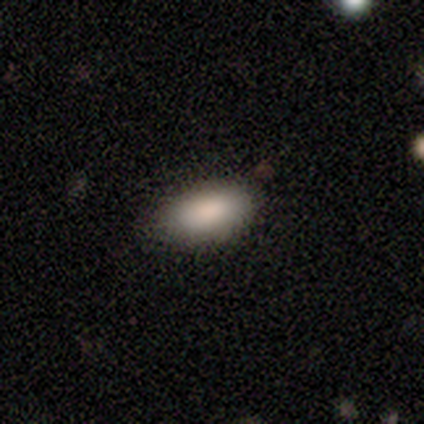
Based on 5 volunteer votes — Smooth or featured?
  - smooth: 100% *
  - featured or disk: 0%
  - star or artifact: 0%
How rounded?
  - in between: 100% *
  - round: 0%
  - cigar-shaped: 0%
Merging?
  - none: 100% *
  - minor disturbance: 0%
  - major disturbance: 0%
  - merger: 0%